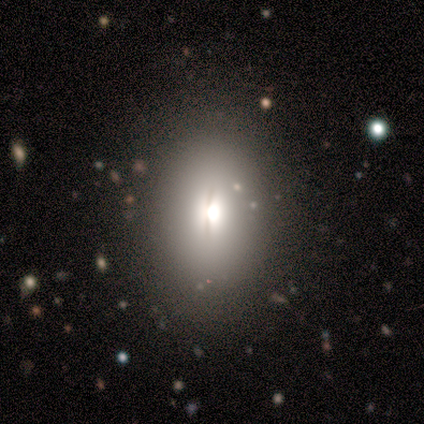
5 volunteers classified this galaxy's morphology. Overall: smooth (40%, tied with featured or disk). How rounded: round (50%, tied with in between). Merging: none (100%).